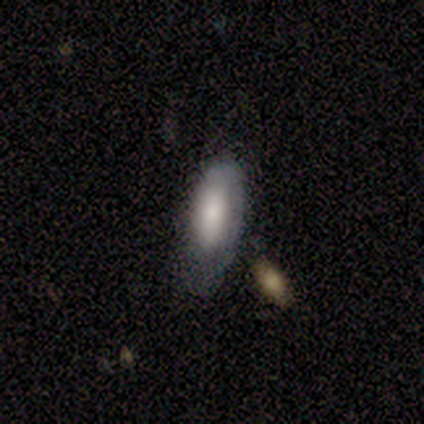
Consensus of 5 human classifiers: Volunteers were most divided on "bulge size" (3-way tie): large: 33%, moderate: 33%, none: 33%, dominant: 0%, small: 0%; "merging" (2-way tie): none: 40%, minor disturbance: 40%, major disturbance: 20%, merger: 0%. More confident: edge-on disk — no (100%); bar — no (100%); spiral arms — no (100%); smooth or featured — featured or disk (60%).